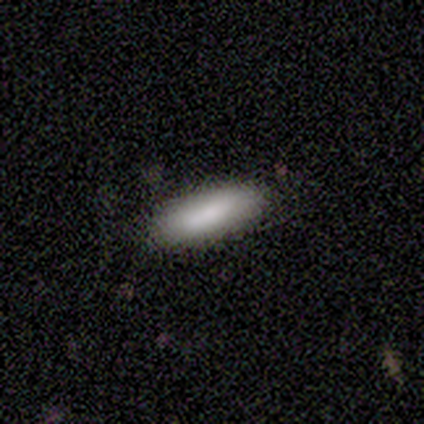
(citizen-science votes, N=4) A smooth galaxy with no disk features (75%) that is in between round and cigar-shaped (67%). Merging: none (100%).